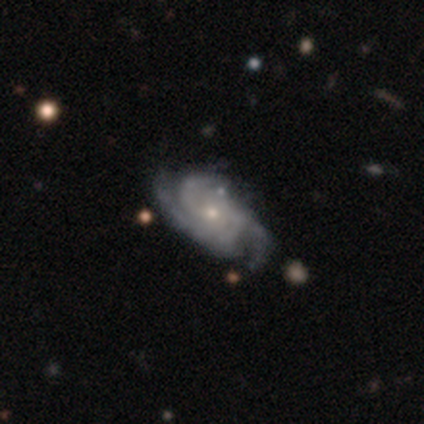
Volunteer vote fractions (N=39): Overall: featured or disk (95%). Edge-on disk: no (97%). Bar: no (78%). Spiral arms: yes (97%). Spiral arm count: 3 (69%). Spiral winding: medium (51%; tight 43%). Bulge size: small (72%). Merging: none (49%; minor disturbance 14%).